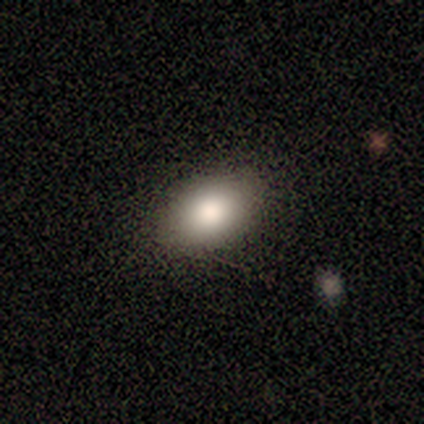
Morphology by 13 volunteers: This is likely a smooth galaxy (69%). How rounded: clearly in between (100%). Merging: clearly none (92%).